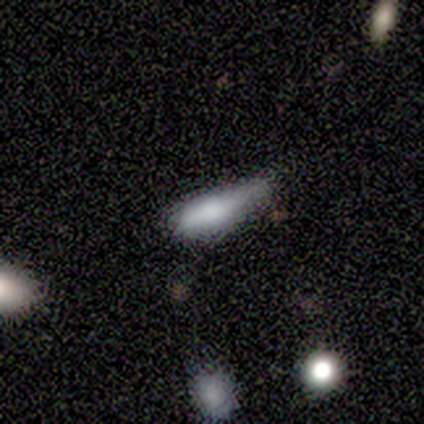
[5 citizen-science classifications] This is marginally a smooth galaxy (40%, tied with star or artifact). How rounded: possibly in between (50%, tied with cigar-shaped). Merging: marginally none (33%, tied with minor disturbance and major disturbance).